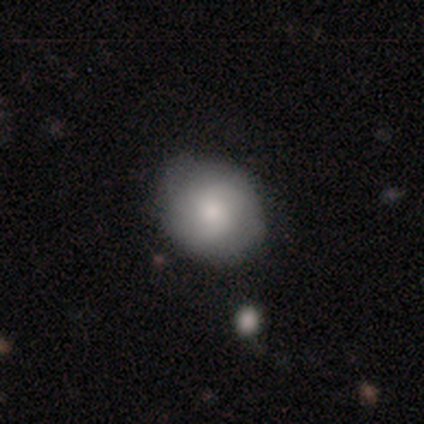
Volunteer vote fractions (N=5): Smooth or featured? featured or disk (60%)
Edge-on disk? no (100%)
Bar? strong (33%, tied with weak and no)
Spiral arms? no (100%)
Bulge size? moderate (67%)
Merging? none (100%)